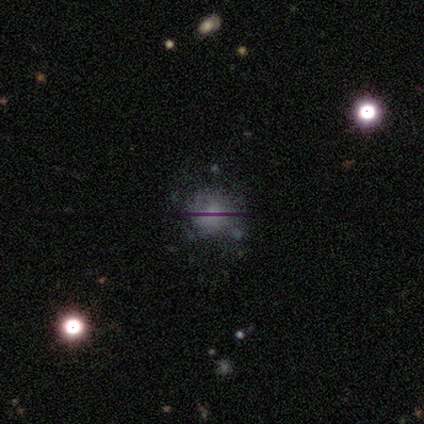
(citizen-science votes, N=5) This is marginally a smooth galaxy (40%, tied with star or artifact). How rounded: possibly round (50%, tied with in between). Merging: likely none (67%).